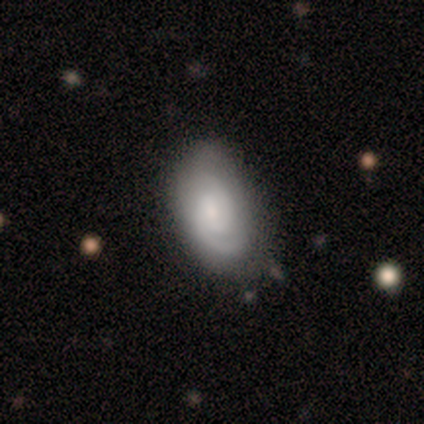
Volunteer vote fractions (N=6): featured or disk 83%, smooth 17%, star or artifact 0%. Down the decision tree: edge-on disk — no (80%); bar — weak (50%, tied with no); spiral arms — yes (100%); spiral arm count — 2 (100%); spiral winding — tight (50%, tied with medium); bulge size — moderate (50%, tied with small); merging — none (50%, tied with minor disturbance).